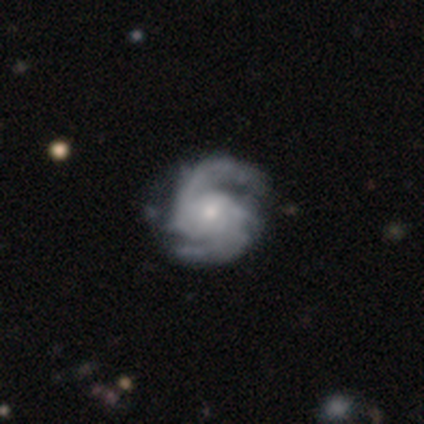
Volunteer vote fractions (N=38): Q: Smooth or featured?
A: featured or disk (97%); runner-up: star or artifact (3%)
Q: Edge-on disk?
A: no (100%)
Q: Bar?
A: no (68%); runner-up: weak (27%)
Q: Spiral arms?
A: yes (100%)
Q: Spiral winding?
A: medium (57%); runner-up: tight (38%)
Q: Spiral arm count?
A: 2 (76%); runner-up: can't tell (11%)
Q: Bulge size?
A: small (49%); runner-up: moderate (43%)
Q: Merging?
A: none (49%); runner-up: minor disturbance (16%)